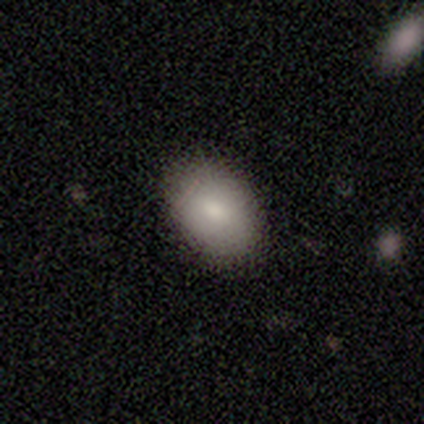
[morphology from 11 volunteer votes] smooth-or-featured: smooth: 100% | featured or disk: 0% | star or artifact: 0%
  how-rounded: in between: 91% | round: 9% | cigar-shaped: 0%
  merging: none: 82% | minor disturbance: 18% | major disturbance: 0% | merger: 0%